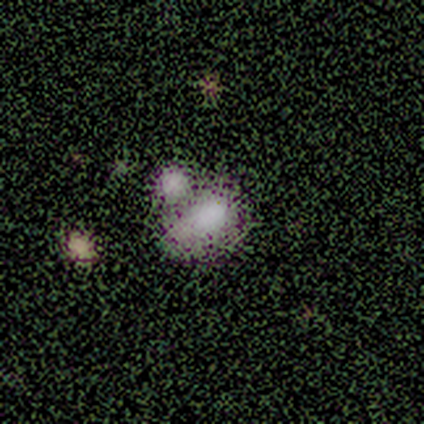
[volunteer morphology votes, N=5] featured or disk 60%, smooth 40%, star or artifact 0%. Down the decision tree: edge-on disk — no (100%); bar — no (100%); spiral arms — no (100%); bulge size — none (100%); merging — merger (100%).